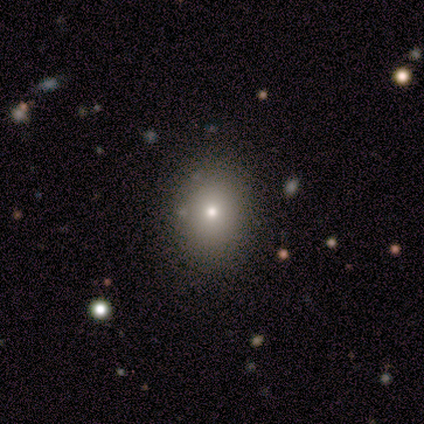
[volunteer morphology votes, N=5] Smooth or featured? 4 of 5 (80%) said smooth. How rounded? 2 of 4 (50%, tied with in between) said round. Merging? 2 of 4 (50%) said none.